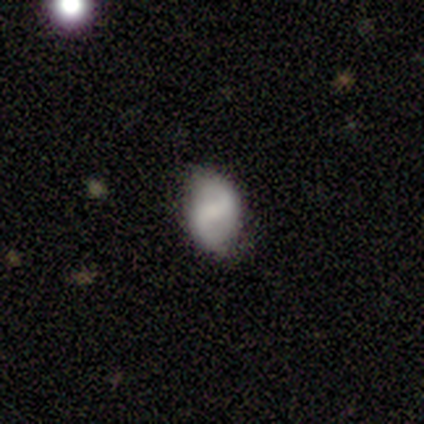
featured or disk 80%, star or artifact 20%, smooth 0%. Down the decision tree: edge-on disk — no (100%); bar — weak (75%); spiral arms — yes (75%); spiral arm count — 2 (100%); spiral winding — loose (67%); bulge size — small (50%); merging — none (75%).